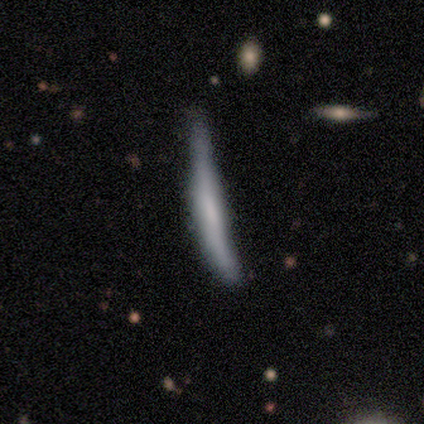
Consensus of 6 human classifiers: smooth-or-featured: smooth: 67% | featured or disk: 33% | star or artifact: 0%
  how-rounded: cigar-shaped: 100% | round: 0% | in between: 0%
  merging: minor disturbance: 67% | none: 33% | major disturbance: 0% | merger: 0%